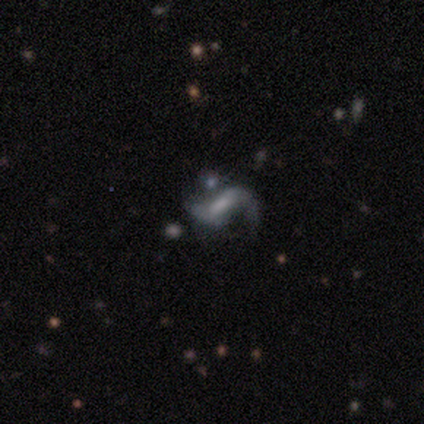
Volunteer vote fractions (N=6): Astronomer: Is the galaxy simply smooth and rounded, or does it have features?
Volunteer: featured or disk — 83%.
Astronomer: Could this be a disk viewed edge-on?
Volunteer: no — 100%.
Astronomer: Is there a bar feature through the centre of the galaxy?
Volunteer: strong — 40%, tied with weak at 40%.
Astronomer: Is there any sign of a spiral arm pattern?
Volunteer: yes — 80%.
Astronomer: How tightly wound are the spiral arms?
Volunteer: loose — 100%.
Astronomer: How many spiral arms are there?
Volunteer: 2 — 100%.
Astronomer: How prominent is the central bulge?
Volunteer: moderate — 40%, tied with small at 40%.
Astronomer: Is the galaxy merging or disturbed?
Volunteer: none — 60% (runner-up: merger, 40%).